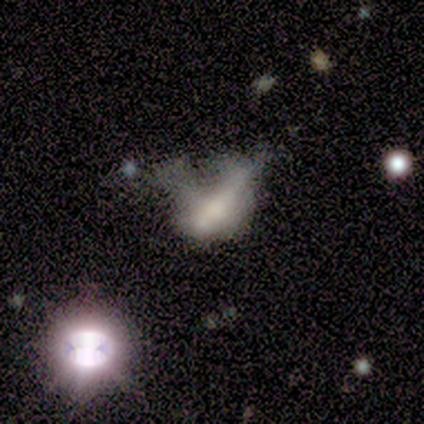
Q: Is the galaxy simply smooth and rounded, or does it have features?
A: featured or disk — 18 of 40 (45%).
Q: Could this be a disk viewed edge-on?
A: no — 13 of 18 (72%).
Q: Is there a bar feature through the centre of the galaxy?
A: no — 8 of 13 (62%).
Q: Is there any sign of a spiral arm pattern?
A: no — 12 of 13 (92%).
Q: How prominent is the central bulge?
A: none — 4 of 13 (31%).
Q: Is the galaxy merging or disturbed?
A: major disturbance — 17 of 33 (52%).